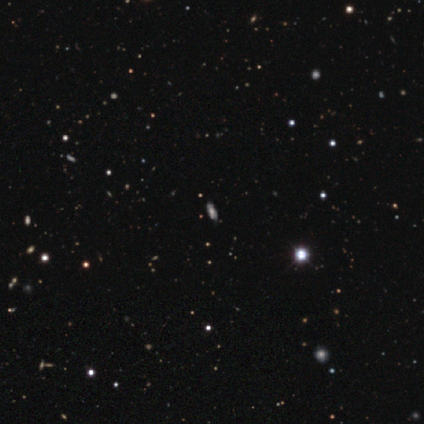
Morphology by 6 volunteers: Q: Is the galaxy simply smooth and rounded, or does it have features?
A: featured or disk — 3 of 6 (50%).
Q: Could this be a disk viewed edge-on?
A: no — 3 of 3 (100%).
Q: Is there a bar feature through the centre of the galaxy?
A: no — 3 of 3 (100%).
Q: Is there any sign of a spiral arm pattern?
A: yes — 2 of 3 (67%).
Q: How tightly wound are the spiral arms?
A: medium — 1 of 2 (50%, tied with loose).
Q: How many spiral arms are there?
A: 2 — 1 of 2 (50%, tied with can't tell).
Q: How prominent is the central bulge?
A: moderate — 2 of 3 (67%).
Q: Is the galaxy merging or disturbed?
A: none — 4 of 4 (100%).